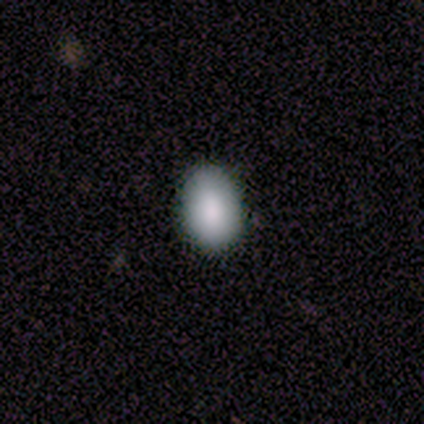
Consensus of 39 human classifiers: Morphology: type=smooth (82%); roundness=in between (91%); merging=none (83%).